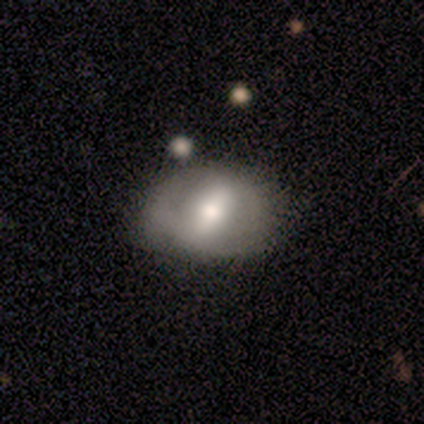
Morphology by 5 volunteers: This is clearly a featured or disk galaxy (100%). It is clearly not viewed edge-on (100%). Bar: clearly strong (80%). Spiral arm pattern: clearly no (100%). Central bulge: likely large (60%). Merging: likely none (60%).